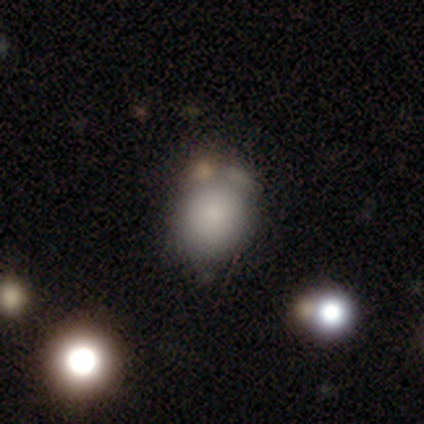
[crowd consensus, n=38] Smooth or featured?
  - smooth: 68% *
  - featured or disk: 16%
  - star or artifact: 16%
How rounded?
  - round: 81% *
  - in between: 19%
  - cigar-shaped: 0%
Merging?
  - none: 47% *
  - minor disturbance: 28%
  - merger: 16%
  - major disturbance: 9%